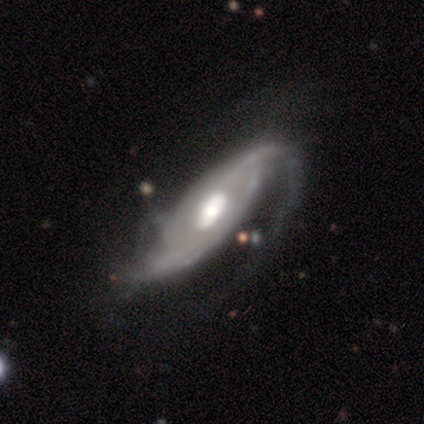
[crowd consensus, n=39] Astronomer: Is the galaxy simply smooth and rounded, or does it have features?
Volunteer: featured or disk — 90%.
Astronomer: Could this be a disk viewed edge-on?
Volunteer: no — 83%.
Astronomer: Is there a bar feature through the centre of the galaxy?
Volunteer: no — 52% (runner-up: weak, 28%).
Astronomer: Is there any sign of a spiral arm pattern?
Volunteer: yes — 97%.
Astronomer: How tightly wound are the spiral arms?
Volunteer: medium — 43% (runner-up: loose, 36%).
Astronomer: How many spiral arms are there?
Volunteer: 2 — 64%.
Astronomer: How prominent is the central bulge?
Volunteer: moderate — 48% (runner-up: large, 41%).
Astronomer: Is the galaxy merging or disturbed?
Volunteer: major disturbance — 44% (runner-up: none, 28%).